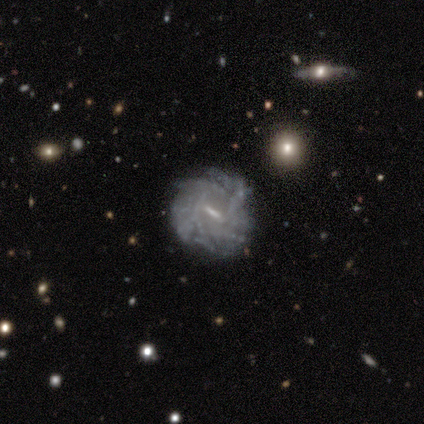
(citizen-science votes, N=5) Smooth or featured? featured or disk (60%)
Edge-on disk? no (100%)
Bar? weak (67%)
Spiral arms? yes (100%)
Spiral winding? tight (67%)
Spiral arm count? can't tell (67%)
Bulge size? small (100%)
Merging? none (100%)